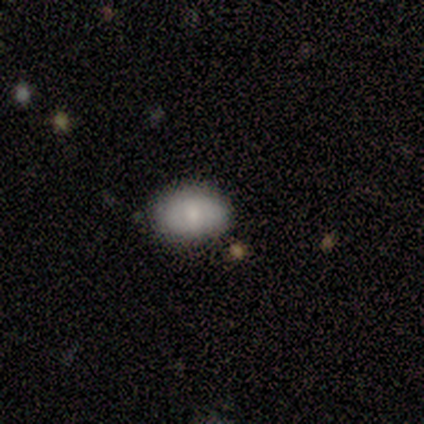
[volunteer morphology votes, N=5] Smooth or featured: smooth — 80% (featured or disk — 20%)
How rounded: in between — 75% (round — 25%)
Merging: none — 80% (major disturbance — 20%)